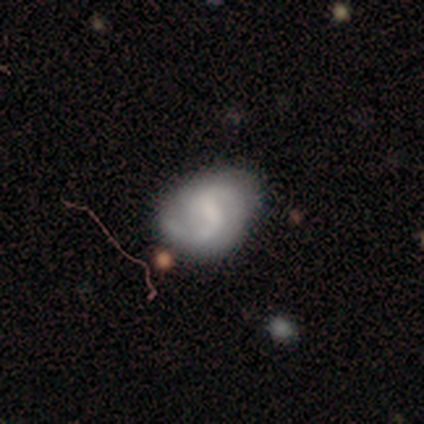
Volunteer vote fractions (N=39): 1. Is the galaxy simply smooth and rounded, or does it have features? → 79% featured or disk, 15% smooth, 5% star or artifact.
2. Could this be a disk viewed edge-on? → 100% no, 0% yes.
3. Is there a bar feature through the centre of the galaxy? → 65% weak, 26% no, 10% strong.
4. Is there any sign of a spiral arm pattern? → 94% yes, 6% no.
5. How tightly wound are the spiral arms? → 62% medium, 21% loose, 17% tight.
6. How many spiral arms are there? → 90% 2, 7% can't tell, 3% 1, 0% 3, 0% 4, 0% more than 4.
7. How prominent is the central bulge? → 45% none, 26% small, 23% moderate, 6% dominant, 0% large.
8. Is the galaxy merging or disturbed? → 51% none, 35% minor disturbance, 14% major disturbance, 0% merger.